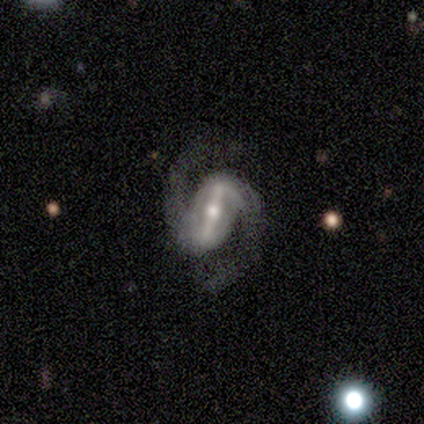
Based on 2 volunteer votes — A featured or disk galaxy (100%) with a strong bar (50%, tied with weak), 2 (100%) medium (50%, tied with loose) spiral arms (100%) and a moderate central bulge (50%, tied with small).

Vote fractions:
- Smooth or featured? featured or disk: 100% / smooth: 0% / star or artifact: 0%
- Edge-on disk? no: 100% / yes: 0%
- Bar? strong: 50% (tied) / weak: 50% (tied) / no: 0%
- Spiral arms? yes: 100% / no: 0%
- Spiral winding? medium: 50% (tied) / loose: 50% (tied) / tight: 0%
- Spiral arm count? 2: 100% / 1: 0% / 3: 0% / 4: 0% / more than 4: 0% / can't tell: 0%
- Bulge size? moderate: 50% (tied) / small: 50% (tied) / dominant: 0% / large: 0% / none: 0%
- Merging? none: 100% / minor disturbance: 0% / major disturbance: 0% / merger: 0%